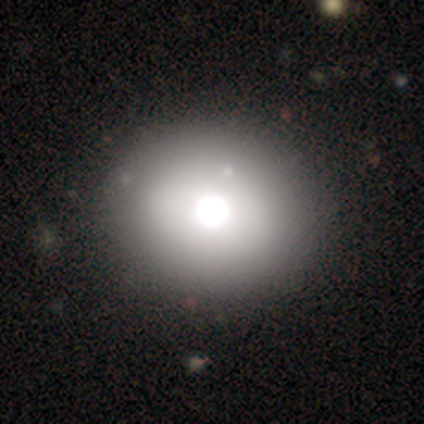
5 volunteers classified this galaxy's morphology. A smooth galaxy with no disk features (80%) that is round (75%).

Vote fractions:
- Smooth or featured? smooth: 80% / star or artifact: 20% / featured or disk: 0%
- How rounded? round: 75% / in between: 25% / cigar-shaped: 0%
- Merging? none: 100% / minor disturbance: 0% / major disturbance: 0% / merger: 0%